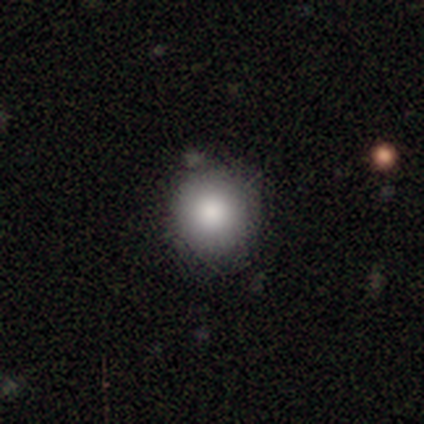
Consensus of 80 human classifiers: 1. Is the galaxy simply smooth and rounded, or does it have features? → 89% smooth, 9% star or artifact, 2% featured or disk.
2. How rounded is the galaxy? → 94% round, 6% in between, 0% cigar-shaped.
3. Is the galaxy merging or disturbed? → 36% none, 8% merger, 7% minor disturbance, 0% major disturbance.